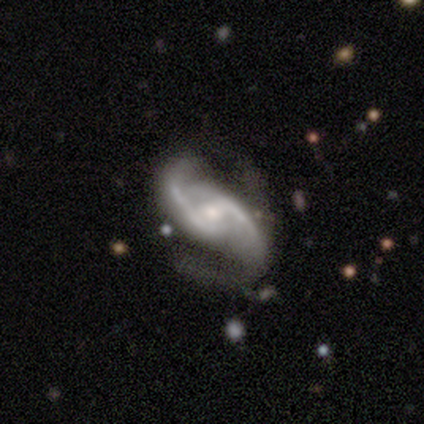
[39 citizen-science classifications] Morphology: type=featured or disk (97%); edge-on=no (95%); bar=weak (53%); spiral arms=yes (94%); winding=medium (65%); arm count=2 (88%); bulge=moderate (53%); merging=none (37%).